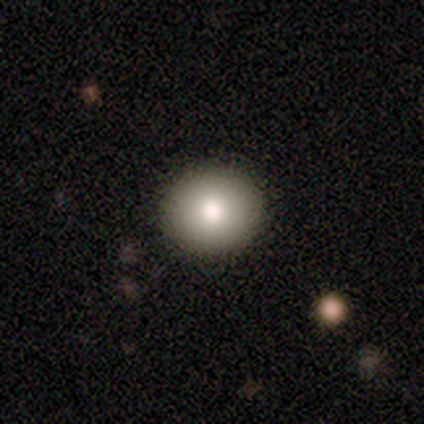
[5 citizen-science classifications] A smooth galaxy with no disk features (80%) that is round (100%). Merging: none (100%).